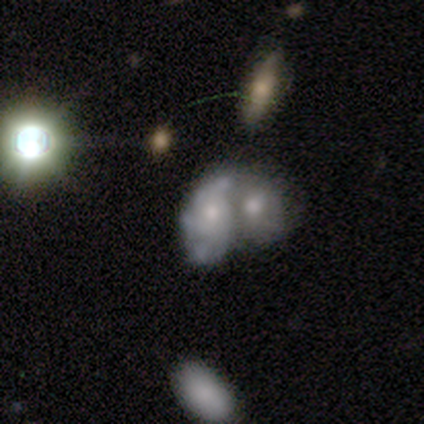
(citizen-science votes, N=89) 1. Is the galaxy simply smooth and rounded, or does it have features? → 71% featured or disk, 18% smooth, 11% star or artifact.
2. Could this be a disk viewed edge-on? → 98% no, 2% yes.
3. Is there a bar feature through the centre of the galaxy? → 85% no, 15% weak, 0% strong.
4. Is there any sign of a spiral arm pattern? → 65% yes, 35% no.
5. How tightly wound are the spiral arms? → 40% tight, 32% medium, 28% loose.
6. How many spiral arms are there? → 40% 3 (tied), 40% can't tell (tied), 18% 2, 2% more than 4, 0% 1, 0% 4.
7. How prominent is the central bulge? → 58% moderate, 32% small, 5% none, 3% large, 2% dominant.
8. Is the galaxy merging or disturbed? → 76% merger, 11% minor disturbance, 10% major disturbance, 3% none.